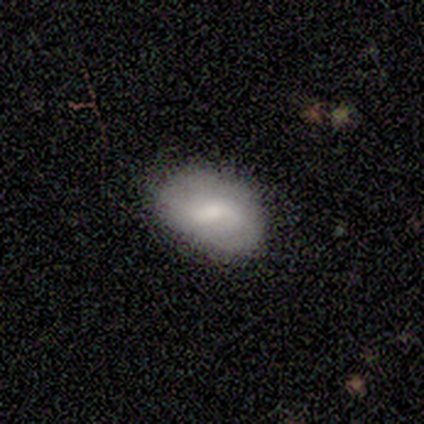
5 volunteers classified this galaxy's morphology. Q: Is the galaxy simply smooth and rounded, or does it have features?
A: smooth — 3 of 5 (60%).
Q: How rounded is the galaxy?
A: in between — 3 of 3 (100%).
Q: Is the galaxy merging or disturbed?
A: none — 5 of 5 (100%).